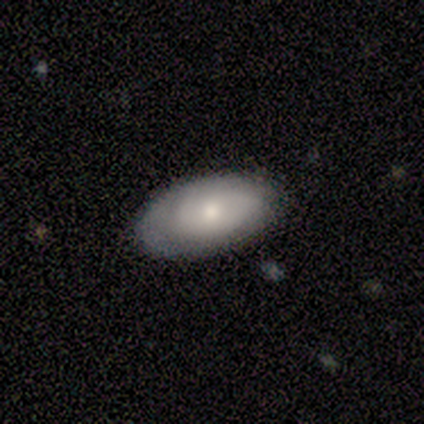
smooth-or-featured: smooth: 62% | featured or disk: 30% | star or artifact: 8%
  how-rounded: in between: 100% | round: 0% | cigar-shaped: 0%
  merging: none: 82% | minor disturbance: 15% | merger: 3% | major disturbance: 0%